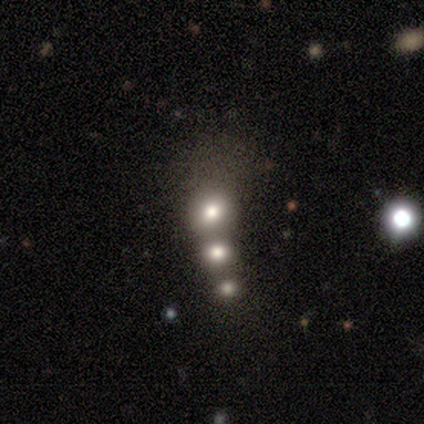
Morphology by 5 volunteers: Q: Smooth or featured?
A: smooth (60%); runner-up: featured or disk (20%)
Q: How rounded?
A: round (100%)
Q: Merging?
A: none (75%); runner-up: merger (25%)